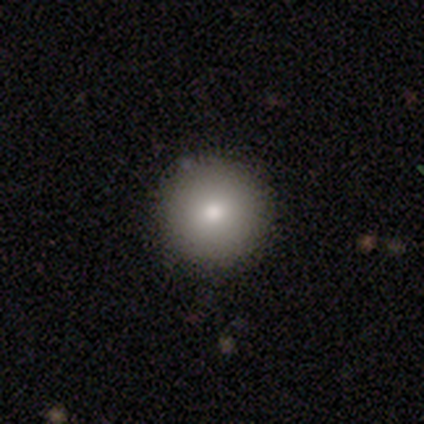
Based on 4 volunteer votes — Smooth or featured? 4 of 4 (100%) said smooth. How rounded? 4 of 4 (100%) said round. Merging? 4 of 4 (100%) said none.